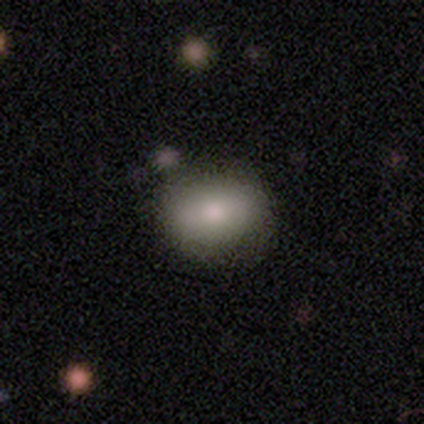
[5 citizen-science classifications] Smooth or featured? smooth (100%)
How rounded? in between (60%)
Merging? none (60%)